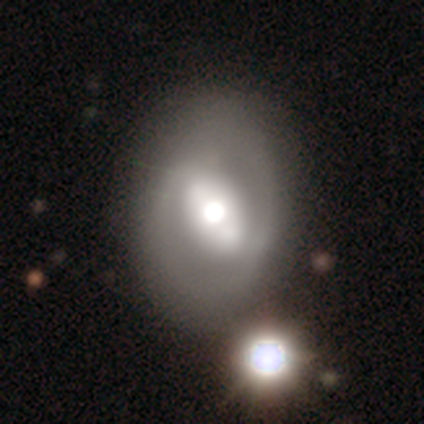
Q: Smooth or featured?
A: featured or disk (71%); runner-up: smooth (24%)
Q: Edge-on disk?
A: no (100%)
Q: Bar?
A: weak (37%); runner-up: strong (33%)
Q: Spiral arms?
A: no (78%); runner-up: yes (22%)
Q: Bulge size?
A: moderate (63%); runner-up: large (30%)
Q: Merging?
A: none (64%); runner-up: merger (11%)